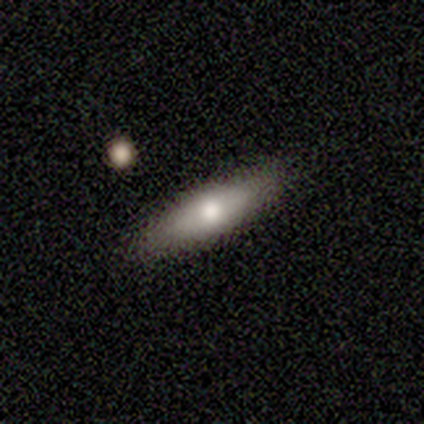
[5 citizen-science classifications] Smooth or featured? 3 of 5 (60%) said smooth. How rounded? 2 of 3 (67%) said cigar-shaped. Merging? 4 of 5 (80%) said none.